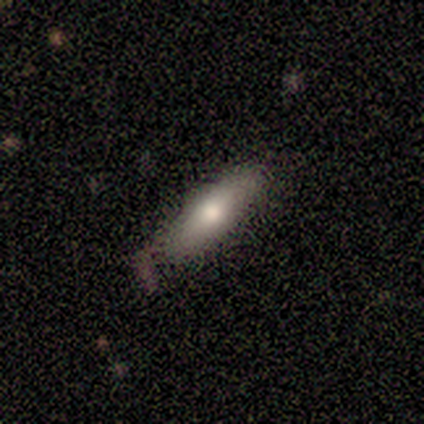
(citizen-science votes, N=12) Smooth or featured? smooth (92%)
How rounded? in between (55%)
Merging? none (83%)